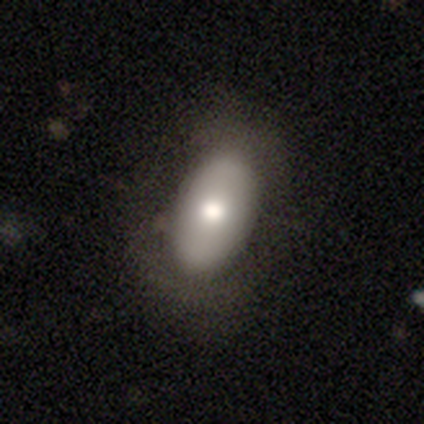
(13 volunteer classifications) Q: Smooth or featured?
A: smooth (77%); runner-up: star or artifact (23%)
Q: How rounded?
A: in between (100%)
Q: Merging?
A: none (70%); runner-up: minor disturbance (20%)